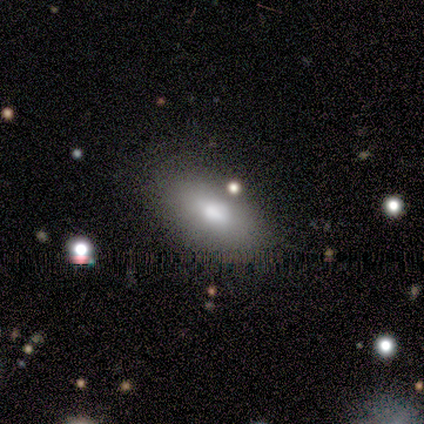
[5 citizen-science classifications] Morphology: type=featured or disk (60%); edge-on=yes (67%); edge-on bulge=rounded (100%); merging=none (60%).